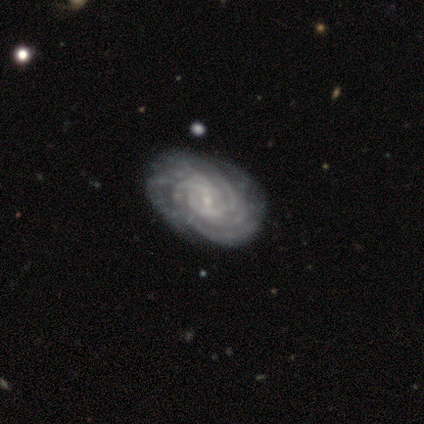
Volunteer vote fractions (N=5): This is clearly a featured or disk galaxy (100%). It is clearly not viewed edge-on (100%). Bar: likely weak (60%). Spiral arm pattern: clearly yes (80%). Spiral arm count: possibly 3 (50%). Spiral winding: likely medium (75%). Central bulge: clearly small (80%). Merging: likely minor disturbance (60%).